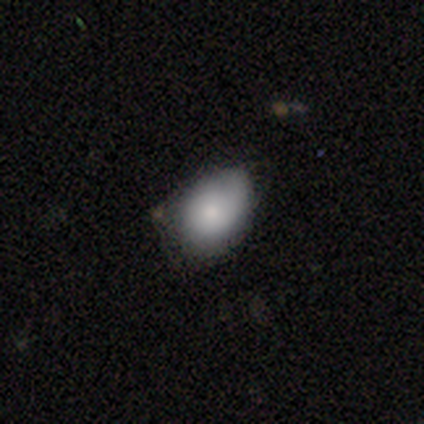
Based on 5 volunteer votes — Smooth or featured? smooth (100%)
How rounded? in between (100%)
Merging? minor disturbance (60%)